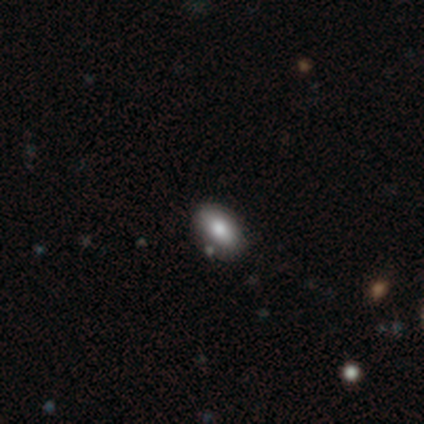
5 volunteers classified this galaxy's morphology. Q: Smooth or featured?
A: smooth (100%)
Q: How rounded?
A: in between (100%)
Q: Merging?
A: none (80%); runner-up: merger (20%)